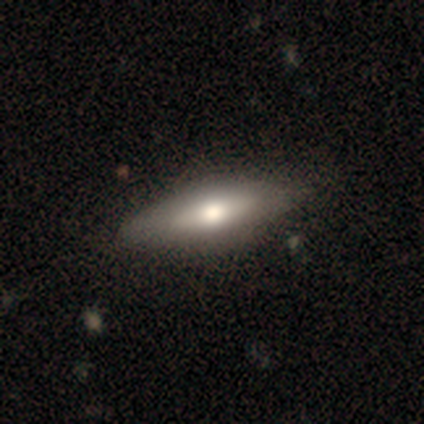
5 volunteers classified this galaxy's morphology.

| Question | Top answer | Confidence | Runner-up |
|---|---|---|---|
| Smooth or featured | featured or disk | 60% | smooth (40%) |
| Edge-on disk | yes | 67% | no (33%) |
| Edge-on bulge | none | 50% | tied: rounded (50%) |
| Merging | none | 100% | — |